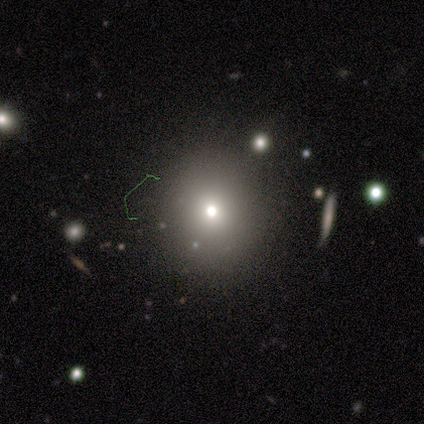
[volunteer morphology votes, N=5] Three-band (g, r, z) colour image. It shows a smooth galaxy with no disk features (40%, tied with featured or disk) that is round (100%). Merging: none (100%).